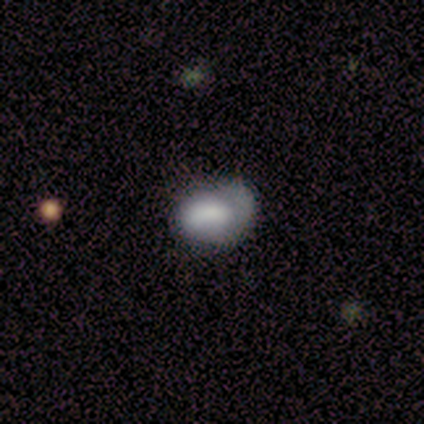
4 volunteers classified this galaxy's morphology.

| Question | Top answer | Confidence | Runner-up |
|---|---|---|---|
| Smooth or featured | smooth | 100% | — |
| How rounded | in between | 75% | round (25%) |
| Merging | minor disturbance | 75% | none (25%) |